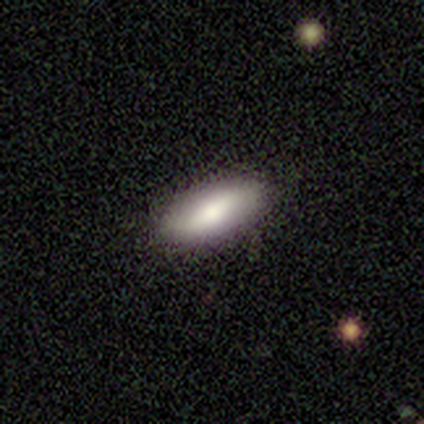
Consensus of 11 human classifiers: Smooth or featured?
  - smooth: 91% *
  - featured or disk: 9%
  - star or artifact: 0%
How rounded?
  - in between: 60% *
  - cigar-shaped: 30%
  - round: 10%
Merging?
  - none: 91% *
  - minor disturbance: 9%
  - major disturbance: 0%
  - merger: 0%